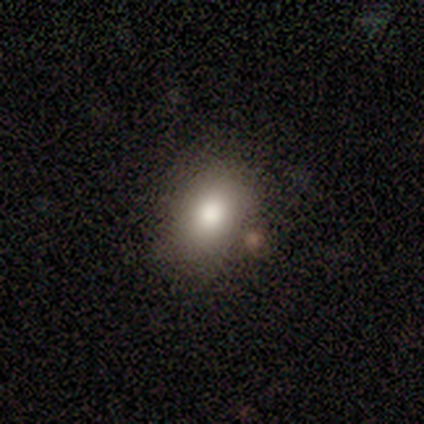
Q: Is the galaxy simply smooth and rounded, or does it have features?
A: smooth — 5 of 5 (100%).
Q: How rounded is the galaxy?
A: in between — 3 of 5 (60%).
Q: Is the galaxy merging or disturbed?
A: none — 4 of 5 (80%).